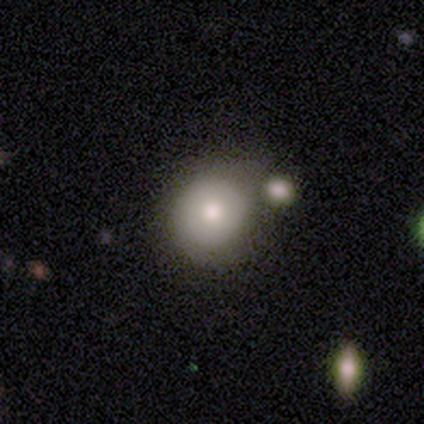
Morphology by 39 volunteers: smooth-or-featured: smooth: 64% | featured or disk: 28% | star or artifact: 8%
  how-rounded: round: 92% | in between: 8% | cigar-shaped: 0%
  merging: none: 58% | minor disturbance: 19% | merger: 17% | major disturbance: 6%